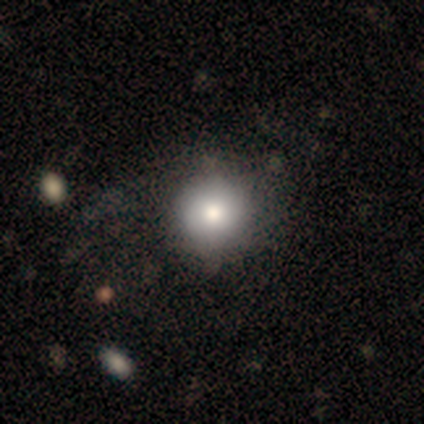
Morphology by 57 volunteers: Smooth or featured? 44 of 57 (77%) said smooth. How rounded? 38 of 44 (86%) said round. Merging? 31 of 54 (57%) said none.